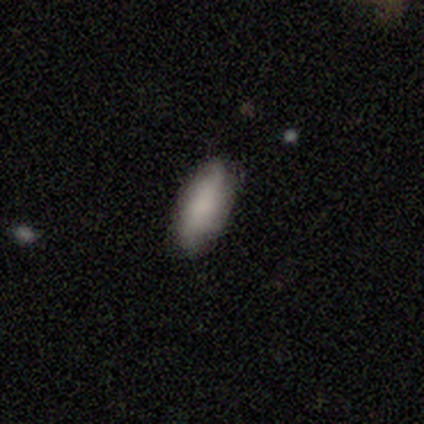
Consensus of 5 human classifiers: Volunteers were most divided on "how rounded": in between: 60%, cigar-shaped: 40%, round: 0%. More confident: smooth or featured — smooth (100%); merging — none (80%).